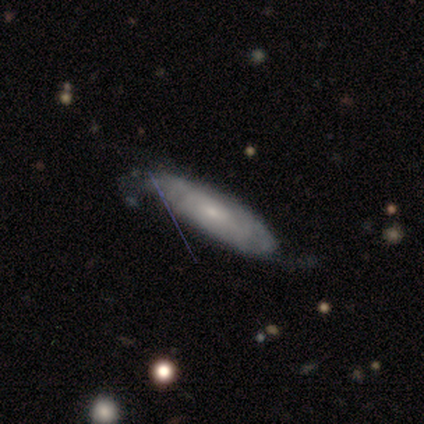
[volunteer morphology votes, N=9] This appears to be a featured or disk galaxy (56%) with a weak bar (50%, tied with no), tight (75%) spiral arms (100%) and a small central bulge (75%). Merging: none (44%).